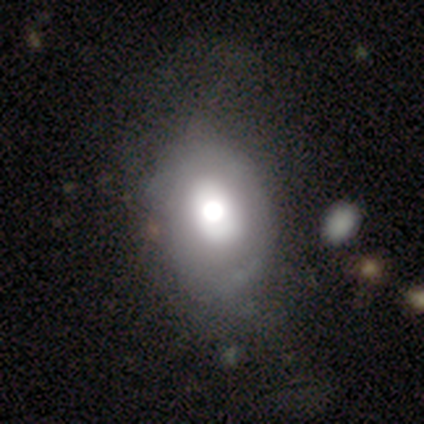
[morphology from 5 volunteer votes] This appears to be a smooth galaxy with no disk features (60%) that is in between round and cigar-shaped (67%). Merging: none (33%, tied with minor disturbance and merger).